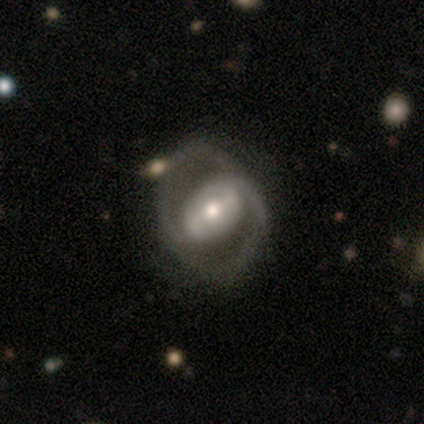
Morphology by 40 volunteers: Smooth or featured: featured or disk — 90% (smooth — 10%)
Edge-on disk: no — 100%
Bar: strong — 50% (weak — 42%)
Spiral arms: yes — 92% (no — 8%)
Spiral winding: medium — 61% (tight — 30%)
Spiral arm count: 2 — 94% (can't tell — 6%)
Bulge size: moderate — 67% (small — 19%)
Merging: none — 80% (minor disturbance — 10%)